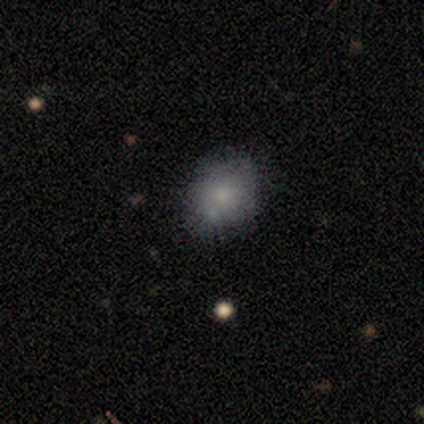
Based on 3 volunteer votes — star or artifact 67%, smooth 33%, featured or disk 0%.